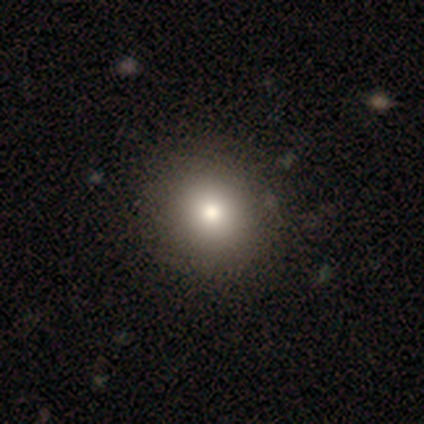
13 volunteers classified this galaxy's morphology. This is likely a smooth galaxy (69%). How rounded: clearly round (89%). Merging: clearly none (90%).